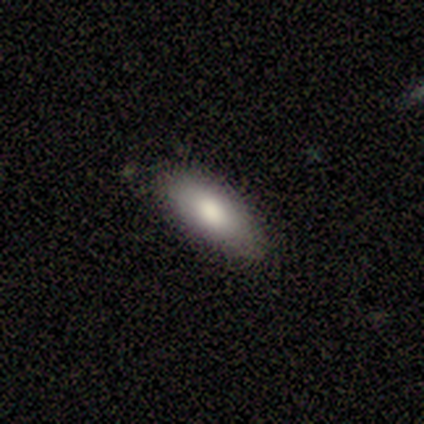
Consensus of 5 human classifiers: Q: Smooth or featured?
A: smooth (100%)
Q: How rounded?
A: in between (100%)
Q: Merging?
A: none (80%); runner-up: minor disturbance (20%)